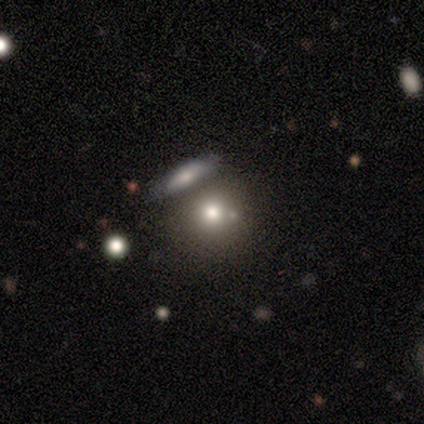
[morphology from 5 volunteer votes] A smooth galaxy with no disk features (80%) that is round (100%).

Vote fractions:
- Smooth or featured? smooth: 80% / star or artifact: 20% / featured or disk: 0%
- How rounded? round: 100% / in between: 0% / cigar-shaped: 0%
- Merging? merger: 75% / none: 25% / minor disturbance: 0% / major disturbance: 0%